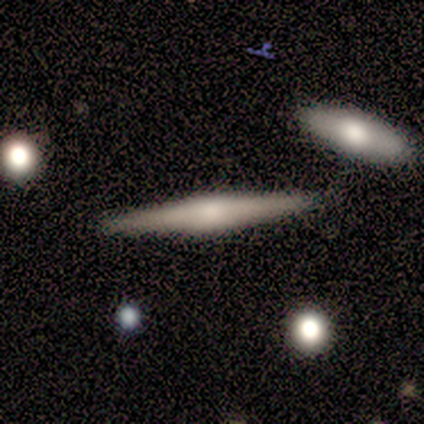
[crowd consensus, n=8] Smooth or featured?
  - featured or disk: 88% *
  - smooth: 12%
  - star or artifact: 0%
Edge-on disk?
  - yes: 100% *
  - no: 0%
Edge-on bulge?
  - rounded: 43% *
  - boxy: 29%
  - none: 29%
Merging?
  - none: 88% *
  - minor disturbance: 12%
  - major disturbance: 0%
  - merger: 0%